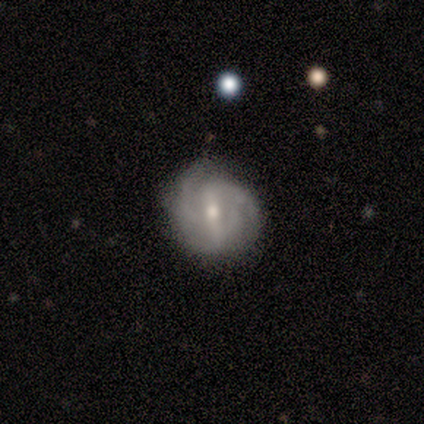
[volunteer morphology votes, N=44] Volunteers were most divided on "spiral winding": medium: 46%, tight: 40%, loose: 14%. More confident: edge-on disk — no (100%); spiral arms — yes (90%); smooth or featured — featured or disk (89%); merging — none (69%); bulge size — moderate (54%); bar — strong (54%); spiral arm count — 2 (51%).